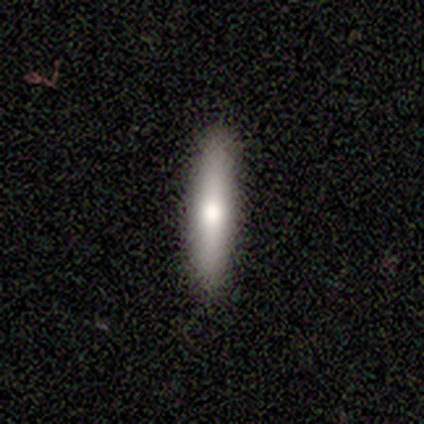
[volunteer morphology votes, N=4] smooth_or_featured: smooth (p=0.75) [alt: featured or disk p=0.25]
how_rounded: cigar-shaped (p=0.67) [alt: in between p=0.33]
merging: none (p=0.75) [alt: merger p=0.25]